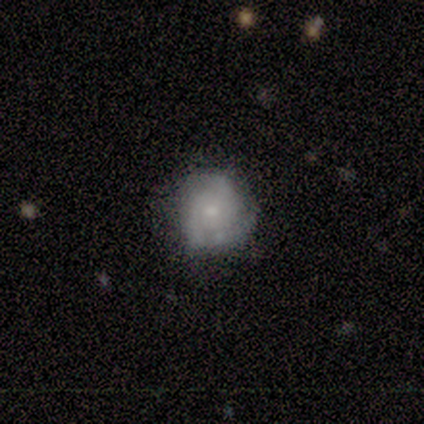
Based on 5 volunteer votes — Q: Smooth or featured?
A: featured or disk (60%); runner-up: smooth (40%)
Q: Edge-on disk?
A: no (100%)
Q: Bar?
A: no (67%); runner-up: weak (33%)
Q: Spiral arms?
A: yes (100%)
Q: Spiral winding?
A: tight (33%); tied with: medium (33%); loose (33%)
Q: Spiral arm count?
A: can't tell (67%); runner-up: 2 (33%)
Q: Bulge size?
A: small (67%); runner-up: moderate (33%)
Q: Merging?
A: none (60%); runner-up: minor disturbance (40%)